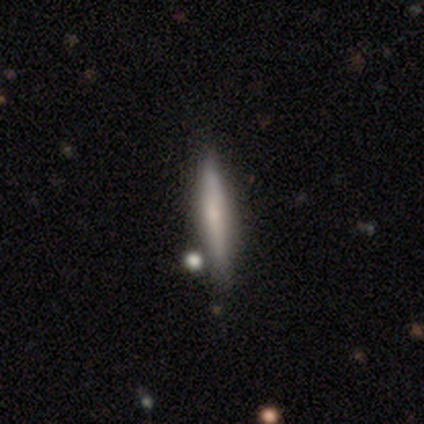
Morphology: type=smooth (49%); roundness=cigar-shaped (100%); merging=none (50%).